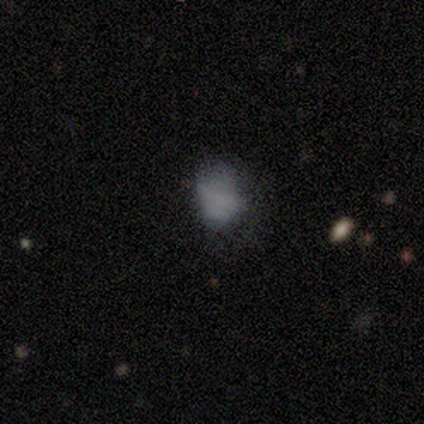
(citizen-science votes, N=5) smooth_or_featured: featured or disk (p=0.60) [alt: smooth p=0.40]
disk_edge_on: no (p=0.67) [alt: yes p=0.33]
bar: weak (p=0.50) [tied with: no p=0.50]
has_spiral_arms: no (p=1.00)
bulge_size: none (p=1.00)
merging: minor disturbance (p=0.40) [tied with: major disturbance p=0.40]